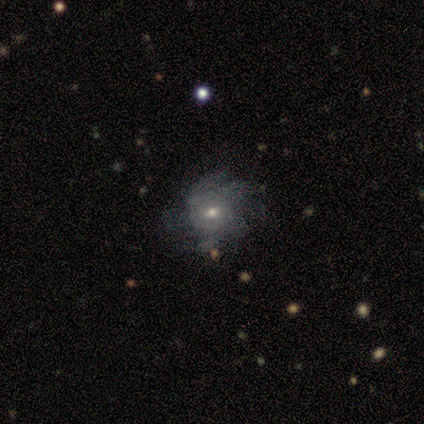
Q: Smooth or featured?
A: featured or disk (50%); runner-up: smooth (25%)
Q: Edge-on disk?
A: no (100%)
Q: Bar?
A: weak (50%); tied with: no (50%)
Q: Spiral arms?
A: yes (100%)
Q: Spiral winding?
A: tight (100%)
Q: Spiral arm count?
A: 3 (50%); tied with: can't tell (50%)
Q: Bulge size?
A: small (100%)
Q: Merging?
A: minor disturbance (67%); runner-up: none (33%)